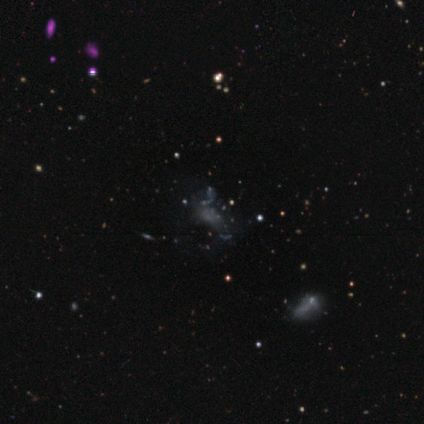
Smooth or featured? star or artifact (80%)